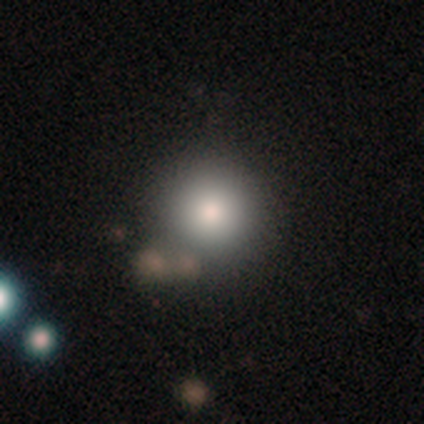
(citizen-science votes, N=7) smooth-or-featured: smooth: 57% | star or artifact: 29% | featured or disk: 14%
  how-rounded: round: 100% | in between: 0% | cigar-shaped: 0%
  merging: none: 60% | minor disturbance: 40% | major disturbance: 0% | merger: 0%